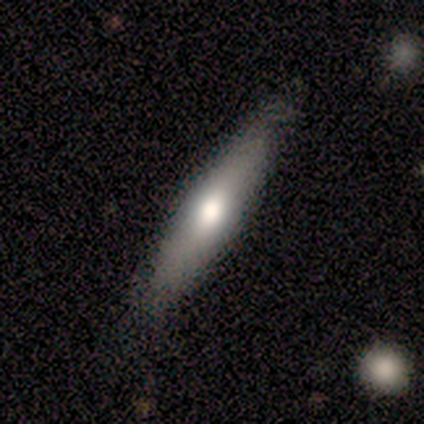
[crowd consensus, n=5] Smooth or featured? smooth (60%)
How rounded? cigar-shaped (67%)
Merging? none (80%)